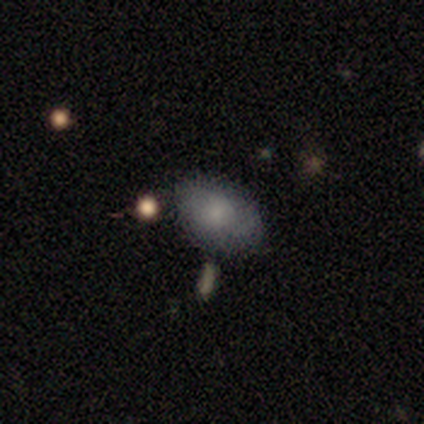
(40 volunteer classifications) Smooth or featured: smooth — 75% (featured or disk — 18%)
How rounded: in between — 90% (round — 7%)
Merging: none — 78% (minor disturbance — 16%)